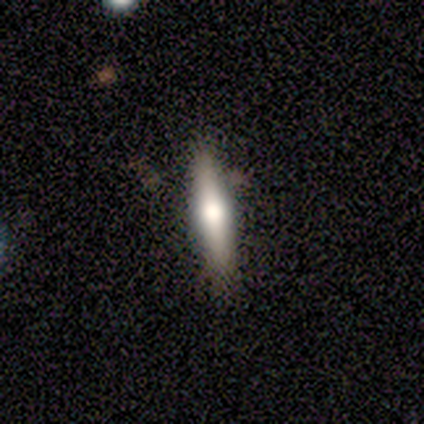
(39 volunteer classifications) Morphology: type=featured or disk (51%); edge-on=yes (100%); edge-on bulge=rounded (95%); merging=none (89%).